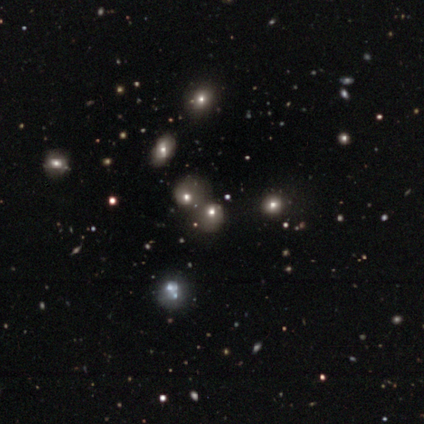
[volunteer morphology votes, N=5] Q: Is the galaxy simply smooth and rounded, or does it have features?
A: star or artifact — 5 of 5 (100%).